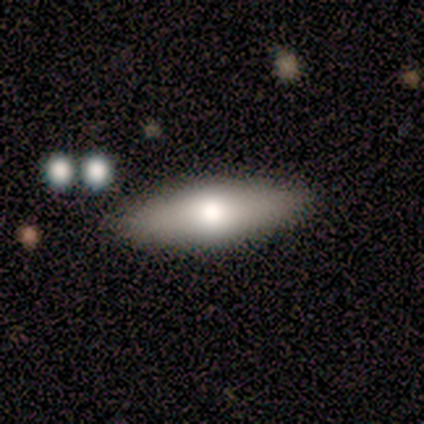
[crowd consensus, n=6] smooth_or_featured: smooth (p=0.67) [alt: featured or disk p=0.17]
how_rounded: in between (p=0.50) [tied with: cigar-shaped p=0.50]
merging: none (p=1.00)